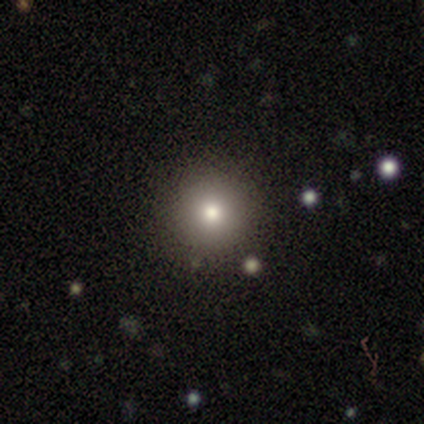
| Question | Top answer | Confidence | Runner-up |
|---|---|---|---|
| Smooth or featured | smooth | 60% | featured or disk (20%) |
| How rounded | round | 100% | — |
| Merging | none | 100% | — |